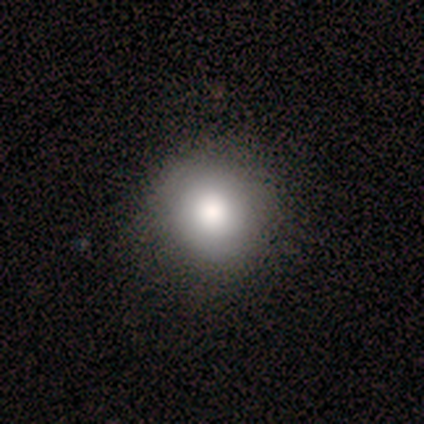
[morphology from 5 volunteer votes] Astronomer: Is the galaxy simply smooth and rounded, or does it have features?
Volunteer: featured or disk — 60% (runner-up: smooth, 40%).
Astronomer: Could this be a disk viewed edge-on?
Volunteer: no — 100%.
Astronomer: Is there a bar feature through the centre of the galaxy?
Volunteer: no — 100%.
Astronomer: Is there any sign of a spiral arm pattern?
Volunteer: no — 67%.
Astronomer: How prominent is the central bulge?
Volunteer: moderate — 67%.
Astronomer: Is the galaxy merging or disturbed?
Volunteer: none — 100%.